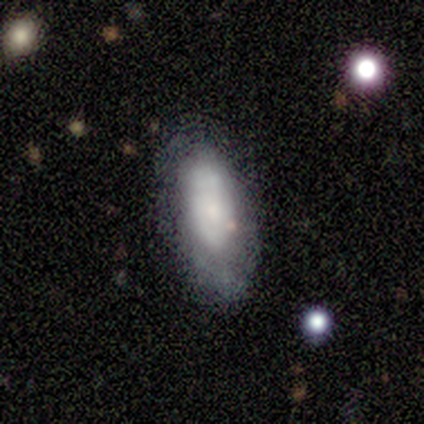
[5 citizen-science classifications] Volunteers were most divided on "smooth or featured": smooth: 60%, star or artifact: 40%, featured or disk: 0%. More confident: merging — minor disturbance (100%); how rounded — in between (67%).